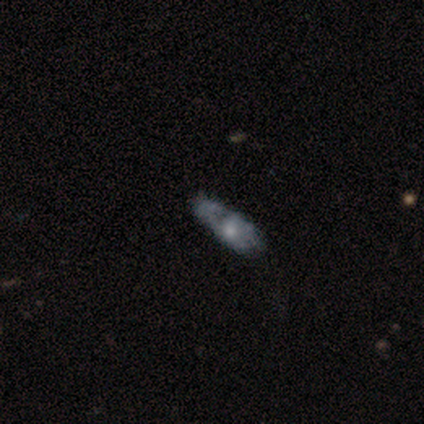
Overall: featured or disk (54%; smooth 36%). Edge-on disk: no (81%). Bar: no (94%). Spiral arms: no (76%). Bulge size: small (53%; moderate 41%). Merging: minor disturbance (43%; none 37%).